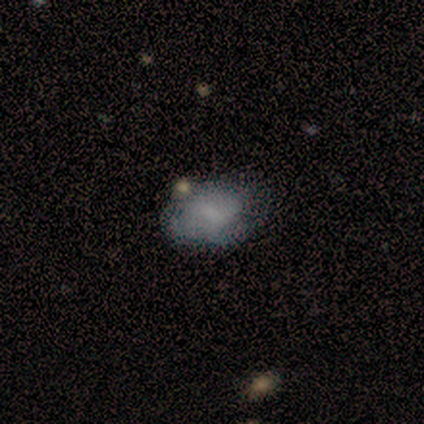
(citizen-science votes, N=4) Volunteers were most divided on "merging": none: 50%, minor disturbance: 25%, merger: 25%, major disturbance: 0%. More confident: how rounded — in between (100%); smooth or featured — smooth (75%).